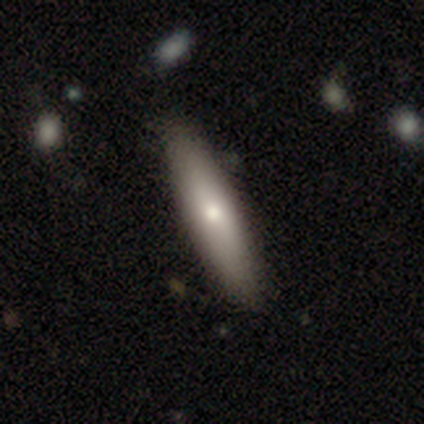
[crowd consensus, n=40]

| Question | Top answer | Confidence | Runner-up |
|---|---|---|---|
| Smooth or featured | smooth | 65% | featured or disk (35%) |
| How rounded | cigar-shaped | 58% | in between (42%) |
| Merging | none | 60% | minor disturbance (5%) |